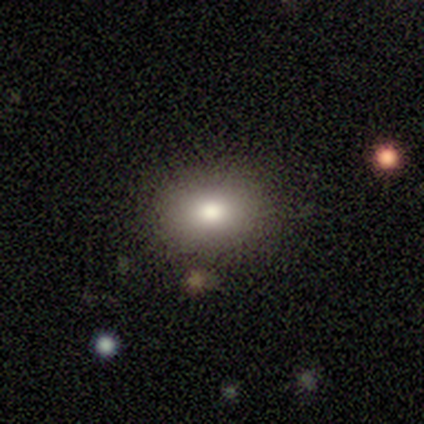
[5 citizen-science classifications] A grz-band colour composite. It shows a smooth galaxy with no disk features (100%) that is round (60%). Merging: none (80%).